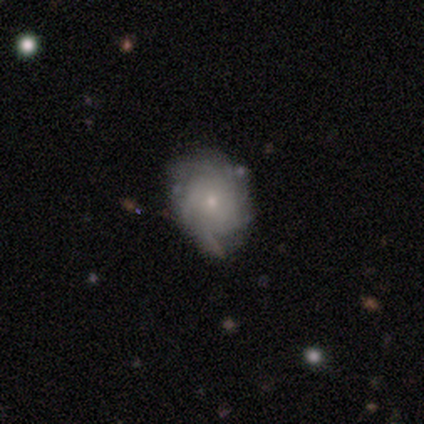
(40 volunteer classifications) Smooth or featured?
  - featured or disk: 72% *
  - smooth: 22%
  - star or artifact: 5%
Edge-on disk?
  - no: 97% *
  - yes: 3%
Bar?
  - no: 96% *
  - weak: 4%
  - strong: 0%
Spiral arms?
  - yes: 93% *
  - no: 7%
Spiral winding?
  - tight: 54% *
  - medium: 42%
  - loose: 4%
Spiral arm count?
  - can't tell: 50% *
  - more than 4: 19%
  - 1: 12%
  - 3: 12%
  - 2: 4%
  - 4: 4%
Bulge size?
  - small: 75% *
  - moderate: 18%
  - none: 7%
  - dominant: 0%
  - large: 0%
Merging?
  - none: 45% *
  - minor disturbance: 42%
  - major disturbance: 8%
  - merger: 5%